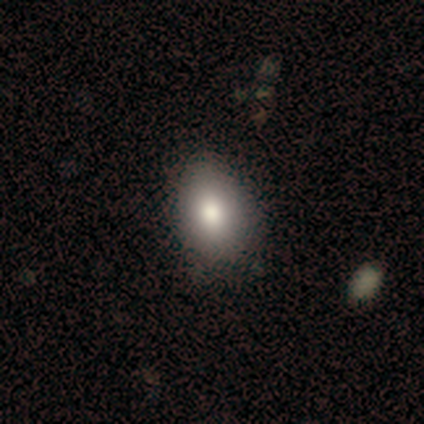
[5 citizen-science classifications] Smooth or featured: smooth — 100%
How rounded: in between — 100%
Merging: none — 80% (major disturbance — 20%)